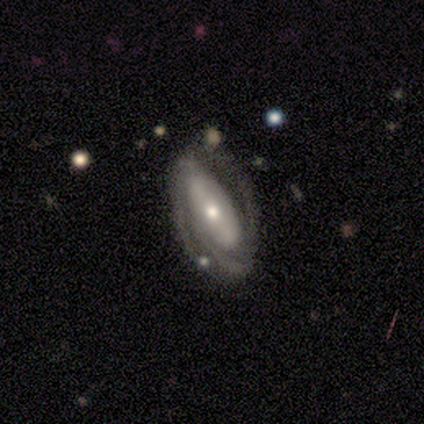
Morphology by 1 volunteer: smooth_or_featured: featured or disk (p=1.00)
disk_edge_on: no (p=1.00)
bar: no (p=1.00)
has_spiral_arms: yes (p=1.00)
spiral_winding: tight (p=1.00)
spiral_arm_count: 4 (p=1.00)
bulge_size: moderate (p=1.00)
merging: none (p=1.00)